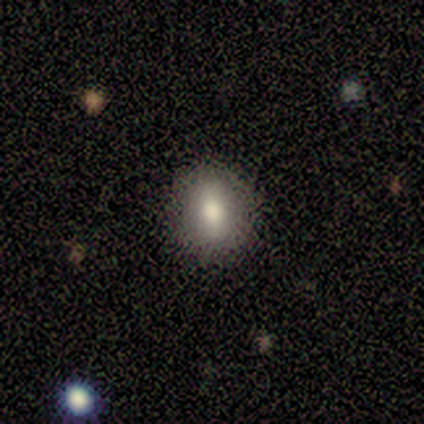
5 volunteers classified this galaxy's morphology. type=smooth (60%); roundness=in between (67%); merging=none (67%).